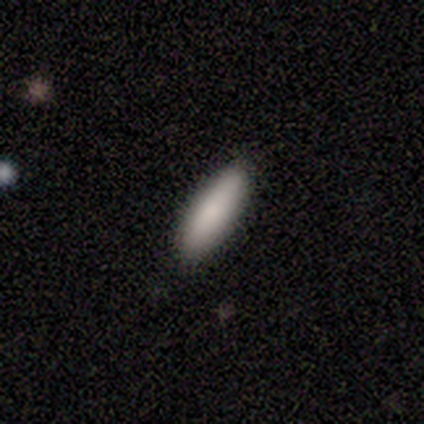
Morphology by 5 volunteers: Smooth or featured: smooth — 100%
How rounded: cigar-shaped — 60% (in between — 40%)
Merging: none — 60% (major disturbance — 20%)